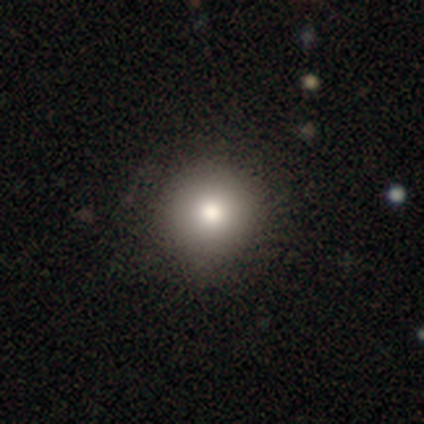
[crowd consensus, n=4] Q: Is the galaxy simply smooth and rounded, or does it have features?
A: smooth — 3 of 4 (75%).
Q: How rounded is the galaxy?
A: round — 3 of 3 (100%).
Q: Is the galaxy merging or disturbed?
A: none — 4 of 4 (100%).